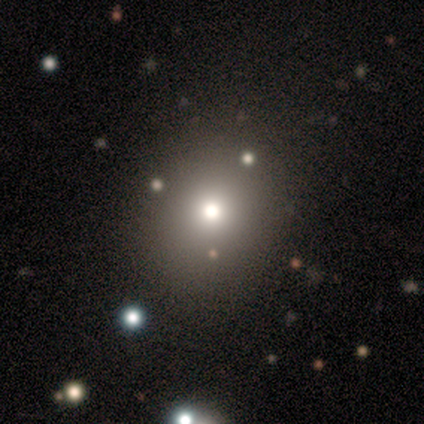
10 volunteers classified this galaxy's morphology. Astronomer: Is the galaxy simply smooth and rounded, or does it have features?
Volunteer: smooth — 70%.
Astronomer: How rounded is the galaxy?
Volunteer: round — 86%.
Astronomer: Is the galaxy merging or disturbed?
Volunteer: none — 88%.